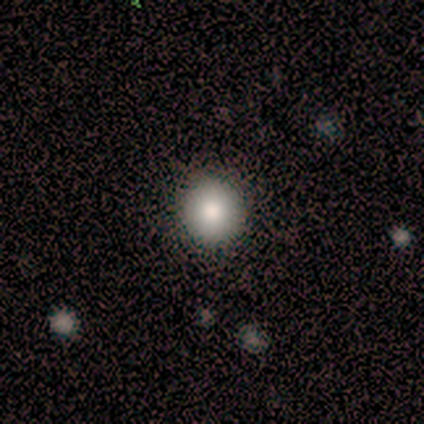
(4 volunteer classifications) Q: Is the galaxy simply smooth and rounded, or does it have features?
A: smooth — 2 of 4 (50%).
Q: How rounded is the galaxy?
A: round — 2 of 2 (100%).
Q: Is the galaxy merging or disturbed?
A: none — 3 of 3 (100%).